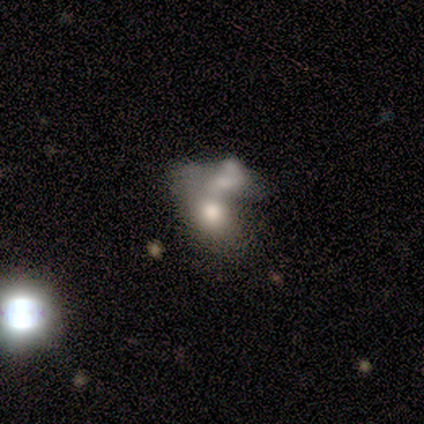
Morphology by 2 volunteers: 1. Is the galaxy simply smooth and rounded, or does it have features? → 100% featured or disk, 0% smooth, 0% star or artifact.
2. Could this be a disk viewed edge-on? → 100% no, 0% yes.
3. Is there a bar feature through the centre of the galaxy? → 100% no, 0% strong, 0% weak.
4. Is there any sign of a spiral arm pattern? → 100% no, 0% yes.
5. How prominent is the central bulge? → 100% moderate, 0% dominant, 0% large, 0% small, 0% none.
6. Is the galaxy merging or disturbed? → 100% merger, 0% none, 0% minor disturbance, 0% major disturbance.